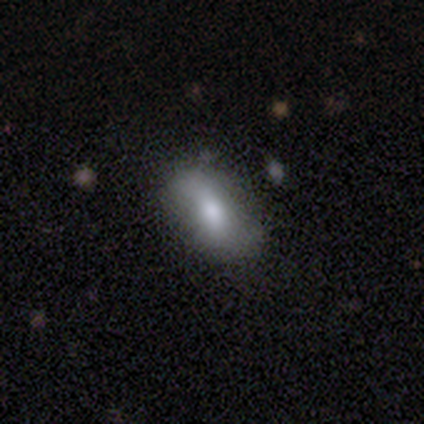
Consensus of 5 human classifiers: A featured or disk galaxy (60%) with a weak bar (100%), 2 (100%) medium (50%, tied with loose) spiral arms (67%) and a moderate central bulge (100%).

Vote fractions:
- Smooth or featured? featured or disk: 60% / smooth: 40% / star or artifact: 0%
- Edge-on disk? no: 100% / yes: 0%
- Bar? weak: 100% / strong: 0% / no: 0%
- Spiral arms? yes: 67% / no: 33%
- Spiral winding? medium: 50% (tied) / loose: 50% (tied) / tight: 0%
- Spiral arm count? 2: 100% / 1: 0% / 3: 0% / 4: 0% / more than 4: 0% / can't tell: 0%
- Bulge size? moderate: 100% / dominant: 0% / large: 0% / small: 0% / none: 0%
- Merging? none: 80% / minor disturbance: 20% / major disturbance: 0% / merger: 0%